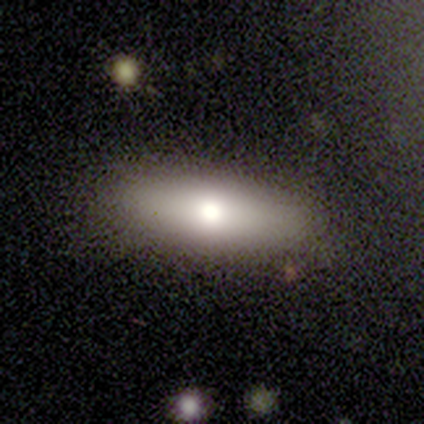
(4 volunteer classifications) Smooth or featured? smooth (75%)
How rounded? cigar-shaped (67%)
Merging? none (100%)